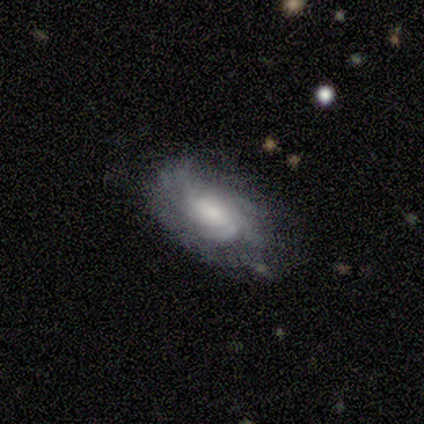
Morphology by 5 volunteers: Smooth or featured?
  - featured or disk: 100% *
  - smooth: 0%
  - star or artifact: 0%
Edge-on disk?
  - no: 100% *
  - yes: 0%
Bar?
  - no: 80% *
  - weak: 20%
  - strong: 0%
Spiral arms?
  - yes: 100% *
  - no: 0%
Spiral winding?
  - tight: 80% *
  - medium: 20%
  - loose: 0%
Spiral arm count?
  - can't tell: 80% *
  - 3: 20%
  - 1: 0%
  - 2: 0%
  - 4: 0%
  - more than 4: 0%
Bulge size?
  - large: 40% * (tied)
  - small: 40% * (tied)
  - moderate: 20%
  - dominant: 0%
  - none: 0%
Merging?
  - none: 80% *
  - minor disturbance: 20%
  - major disturbance: 0%
  - merger: 0%